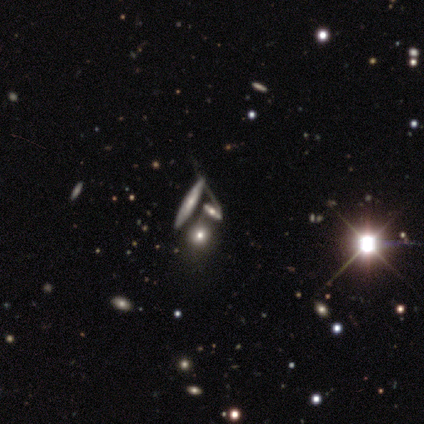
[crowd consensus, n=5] Overall: smooth (60%; featured or disk 40%). How rounded: round (33%, tied with in between and cigar-shaped). Merging: merger (80%).